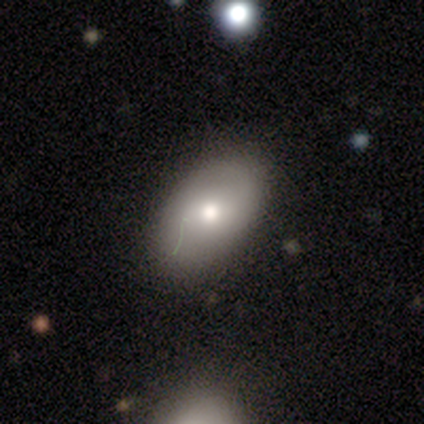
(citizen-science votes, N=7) smooth_or_featured: smooth (p=1.00)
how_rounded: in between (p=1.00)
merging: none (p=0.86) [alt: major disturbance p=0.14]